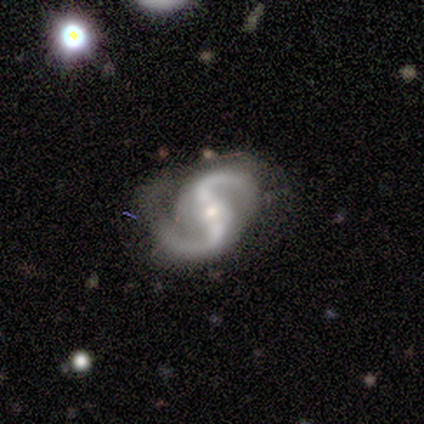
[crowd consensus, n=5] Smooth or featured: featured or disk — 80% (smooth — 20%)
Edge-on disk: no — 100%
Bar: strong — 50% (weak — 25%)
Spiral arms: yes — 75% (no — 25%)
Spiral winding: loose — 100%
Spiral arm count: 2 — 100%
Bulge size: moderate — 50% (tied with small — 50%)
Merging: minor disturbance — 60% (none — 40%)